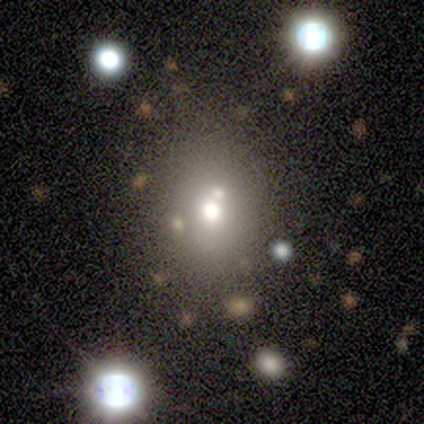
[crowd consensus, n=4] smooth-or-featured: smooth: 75% | featured or disk: 25% | star or artifact: 0%
  how-rounded: round: 100% | in between: 0% | cigar-shaped: 0%
  merging: none: 75% | minor disturbance: 25% | major disturbance: 0% | merger: 0%